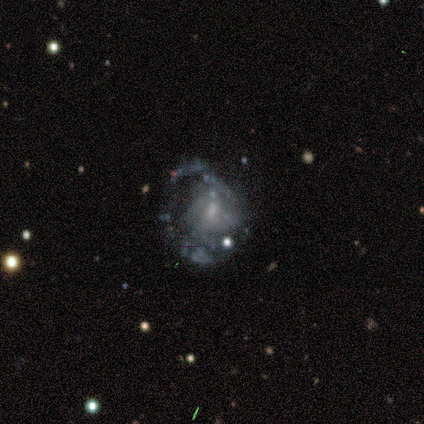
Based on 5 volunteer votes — smooth-or-featured: featured or disk: 80% | smooth: 20% | star or artifact: 0%
  disk-edge-on: no: 100% | yes: 0%
    bar: no: 100% | strong: 0% | weak: 0%
    has-spiral-arms: yes: 50% (tied) | no: 50% (tied)
      spiral-winding: tight: 50% (tied) | loose: 50% (tied) | medium: 0%
      spiral-arm-count: 2: 50% (tied) | can't tell: 50% (tied) | 1: 0% | 3: 0% | 4: 0% | more than 4: 0%
    bulge-size: small: 75% | moderate: 25% | dominant: 0% | large: 0% | none: 0%
  merging: minor disturbance: 40% (tied) | major disturbance: 40% (tied) | none: 20% | merger: 0%